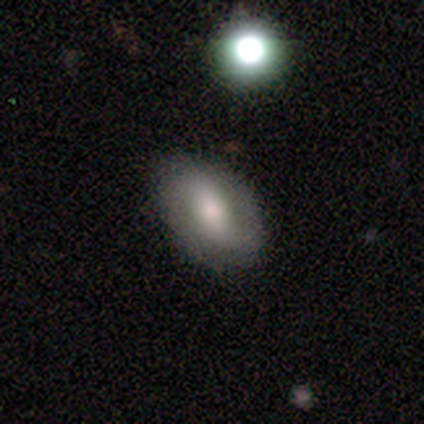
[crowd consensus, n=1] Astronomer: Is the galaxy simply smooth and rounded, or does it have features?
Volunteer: smooth — 100%.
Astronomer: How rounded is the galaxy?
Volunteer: in between — 100%.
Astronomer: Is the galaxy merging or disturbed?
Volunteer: none — 100%.